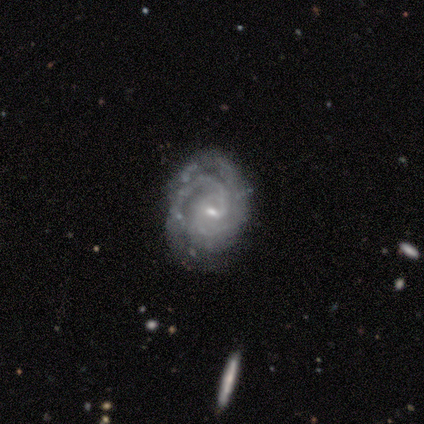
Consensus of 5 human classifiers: smooth-or-featured: featured or disk: 80% | star or artifact: 20% | smooth: 0%
  disk-edge-on: no: 100% | yes: 0%
    bar: no: 50% | strong: 25% | weak: 25%
    has-spiral-arms: yes: 100% | no: 0%
      spiral-winding: tight: 100% | medium: 0% | loose: 0%
      spiral-arm-count: 2: 50% | 3: 25% | 4: 25% | 1: 0% | more than 4: 0% | can't tell: 0%
    bulge-size: small: 100% | dominant: 0% | large: 0% | moderate: 0% | none: 0%
  merging: none: 75% | minor disturbance: 25% | major disturbance: 0% | merger: 0%